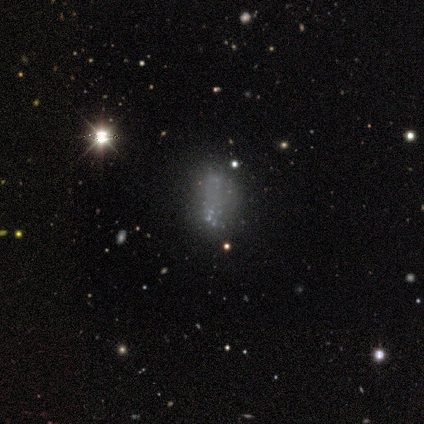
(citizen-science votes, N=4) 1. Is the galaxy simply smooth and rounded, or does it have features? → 75% star or artifact, 25% smooth, 0% featured or disk.